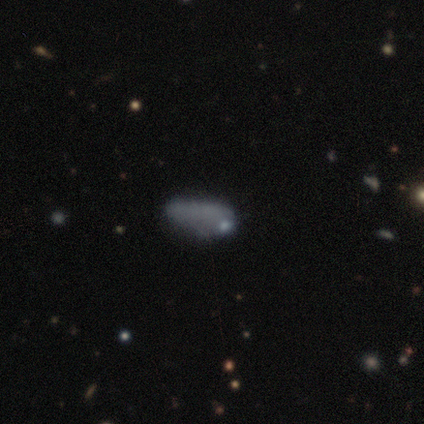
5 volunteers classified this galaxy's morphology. A smooth galaxy with no disk features (80%) that is in between round and cigar-shaped (75%).

Vote fractions:
- Smooth or featured? smooth: 80% / featured or disk: 20% / star or artifact: 0%
- How rounded? in between: 75% / cigar-shaped: 25% / round: 0%
- Merging? none: 40% (tied) / minor disturbance: 40% (tied) / major disturbance: 20% / merger: 0%